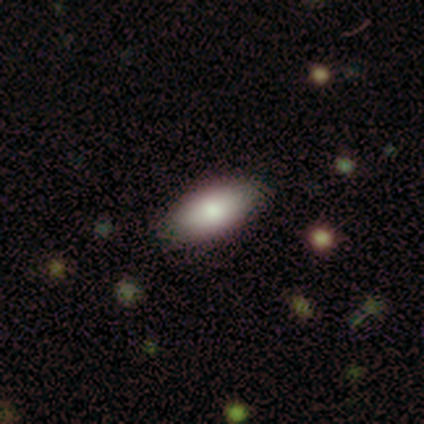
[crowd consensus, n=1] Overall: smooth (100%). How rounded: in between (100%). Merging: none (100%).